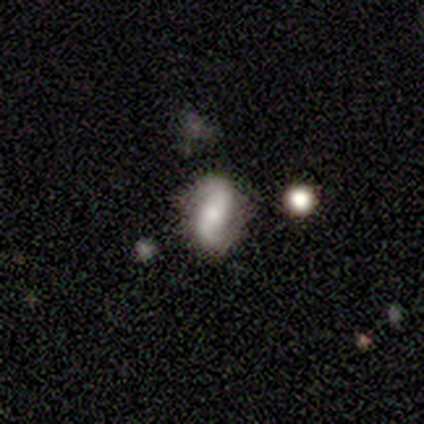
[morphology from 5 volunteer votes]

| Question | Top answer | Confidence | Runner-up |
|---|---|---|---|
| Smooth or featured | featured or disk | 100% | — |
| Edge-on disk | no | 100% | — |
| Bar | no | 60% | strong (20%) |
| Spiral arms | yes | 100% | — |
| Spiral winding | loose | 100% | — |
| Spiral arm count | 2 | 100% | — |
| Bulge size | small | 60% | large (20%) |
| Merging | none | 80% | minor disturbance (20%) |